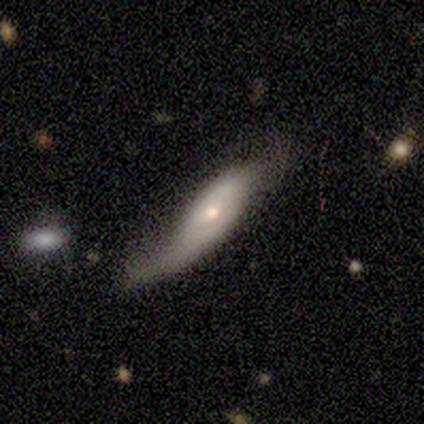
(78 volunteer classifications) This is possibly a featured or disk galaxy (55%). It is clearly not viewed edge-on (84%). Bar: clearly no (92%). Spiral arm pattern: possibly yes (58%). Spiral arm count: likely 2 (76%). Spiral winding: clearly loose (86%). Central bulge: possibly small (53%). Merging: marginally minor disturbance (26%).